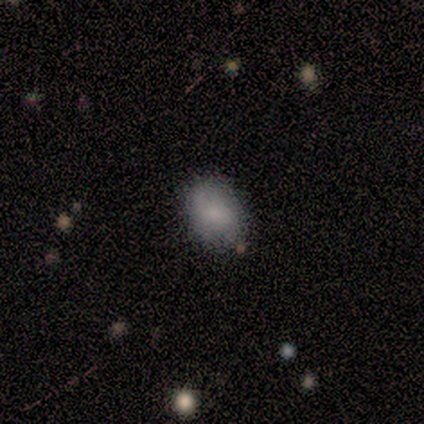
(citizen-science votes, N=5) smooth_or_featured: smooth (p=0.60) [alt: featured or disk p=0.40]
how_rounded: in between (p=0.67) [alt: round p=0.33]
merging: none (p=0.80) [alt: major disturbance p=0.20]